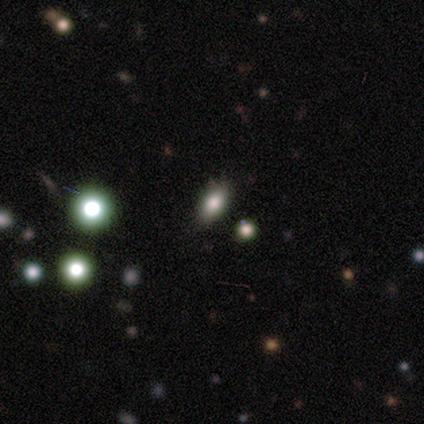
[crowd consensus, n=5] Overall: smooth (80%). How rounded: in between (75%). Merging: none (80%).